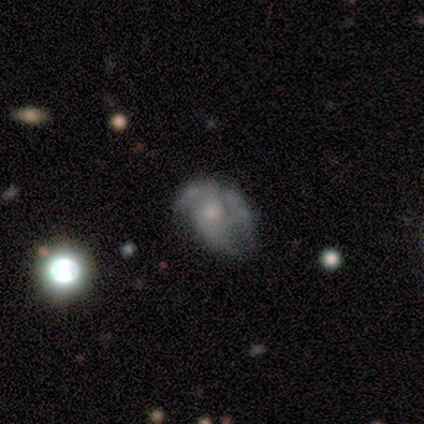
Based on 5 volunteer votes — Q: Smooth or featured?
A: featured or disk (60%); runner-up: smooth (20%)
Q: Edge-on disk?
A: no (100%)
Q: Bar?
A: no (100%)
Q: Spiral arms?
A: no (67%); runner-up: yes (33%)
Q: Bulge size?
A: small (67%); runner-up: moderate (33%)
Q: Merging?
A: minor disturbance (50%); runner-up: none (25%)